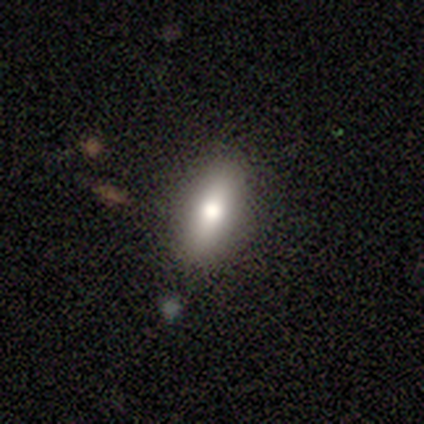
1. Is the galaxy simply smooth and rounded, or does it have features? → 77% smooth, 21% featured or disk, 3% star or artifact.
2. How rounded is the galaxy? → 63% in between, 33% cigar-shaped, 3% round.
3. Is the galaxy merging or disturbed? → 76% none, 18% minor disturbance, 3% major disturbance, 3% merger.